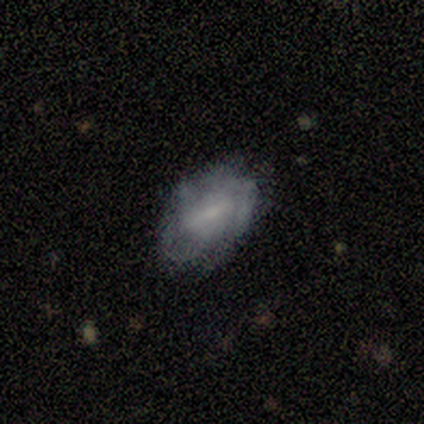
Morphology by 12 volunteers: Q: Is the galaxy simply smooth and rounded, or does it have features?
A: featured or disk — 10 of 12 (83%).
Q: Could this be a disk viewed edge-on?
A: no — 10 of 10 (100%).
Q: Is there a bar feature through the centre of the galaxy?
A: weak — 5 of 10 (50%).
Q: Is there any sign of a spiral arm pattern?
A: yes — 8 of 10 (80%).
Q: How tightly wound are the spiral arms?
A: tight — 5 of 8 (62%).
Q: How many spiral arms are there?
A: can't tell — 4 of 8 (50%).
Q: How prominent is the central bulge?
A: small — 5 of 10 (50%).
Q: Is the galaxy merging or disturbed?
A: none — 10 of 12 (83%).